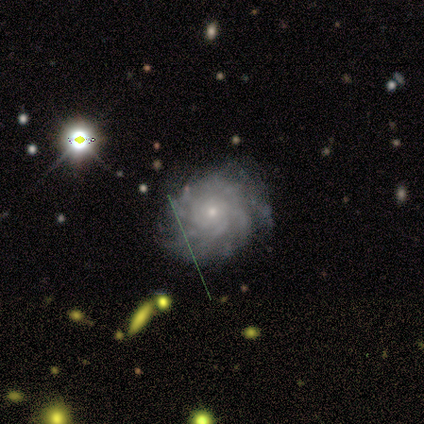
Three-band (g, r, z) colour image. It shows a featured or disk galaxy (60%) with no bar (100%), more than 4 (83%) tight (67%) spiral arms (100%) and a small central bulge (67%). Merging: none (67%).